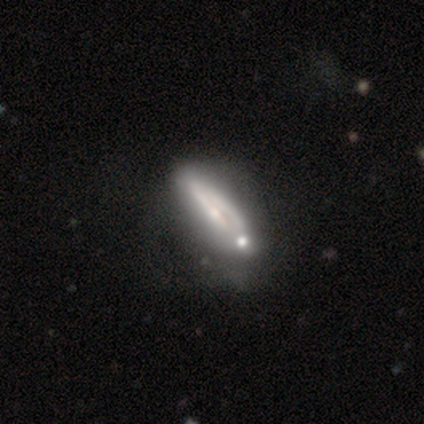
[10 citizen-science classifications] Q: Smooth or featured?
A: featured or disk (50%); runner-up: smooth (40%)
Q: Edge-on disk?
A: yes (60%); runner-up: no (40%)
Q: Edge-on bulge?
A: none (67%); runner-up: rounded (33%)
Q: Merging?
A: none (56%); runner-up: minor disturbance (22%)